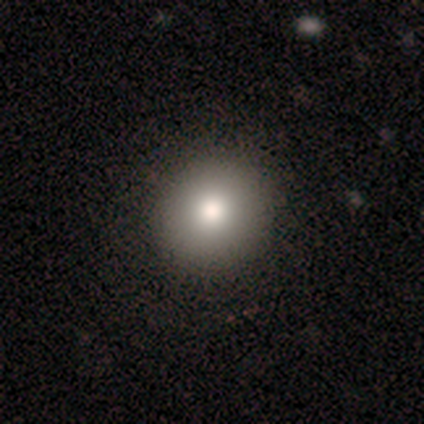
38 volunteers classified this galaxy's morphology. smooth_or_featured: smooth (p=0.84) [alt: featured or disk p=0.13]
how_rounded: round (p=0.97) [alt: in between p=0.03]
merging: none (p=0.76) [alt: minor disturbance p=0.03]